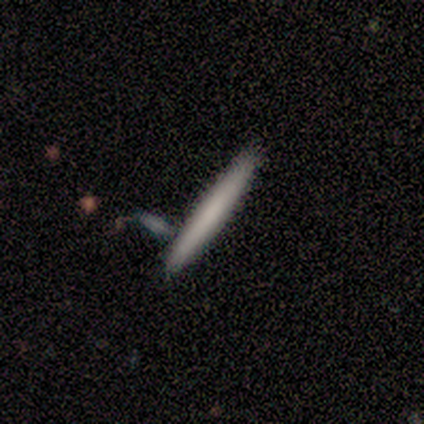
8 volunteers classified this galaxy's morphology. type=smooth (88%); roundness=cigar-shaped (100%); merging=none (88%).